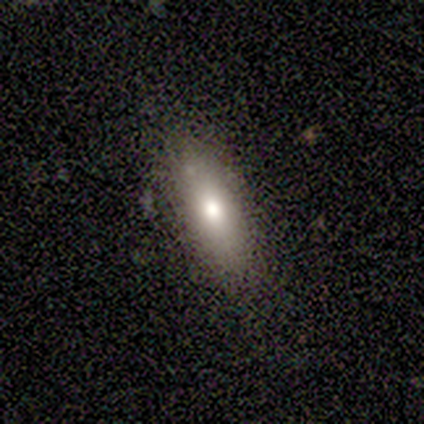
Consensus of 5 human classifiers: Smooth or featured? smooth (80%)
How rounded? in between (75%)
Merging? none (100%)